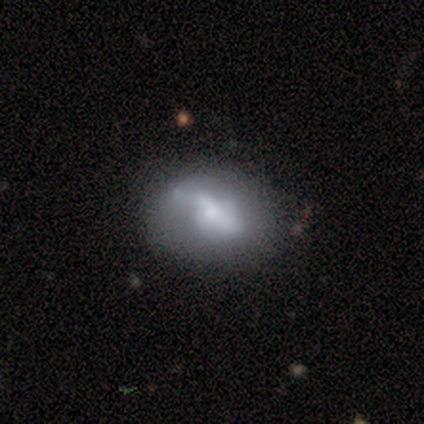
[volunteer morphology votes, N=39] smooth-or-featured: featured or disk: 56% | smooth: 36% | star or artifact: 8%
  disk-edge-on: no: 95% | yes: 5%
    bar: no: 62% | strong: 19% | weak: 19%
    has-spiral-arms: no: 67% | yes: 33%
    bulge-size: small: 38% | moderate: 33% | large: 19% | none: 10% | dominant: 0%
  merging: none: 56% | minor disturbance: 25% | major disturbance: 14% | merger: 6%